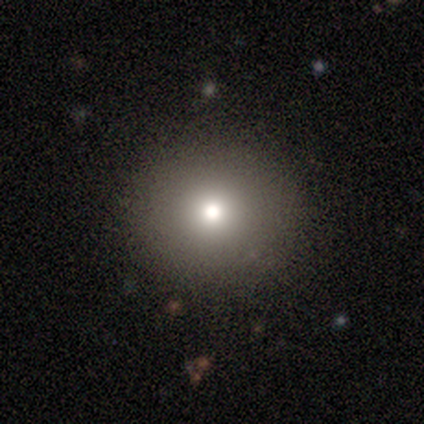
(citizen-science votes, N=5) A smooth galaxy with no disk features (60%) that is round (67%).

Vote fractions:
- Smooth or featured? smooth: 60% / featured or disk: 20% / star or artifact: 20%
- How rounded? round: 67% / in between: 33% / cigar-shaped: 0%
- Merging? none: 100% / minor disturbance: 0% / major disturbance: 0% / merger: 0%